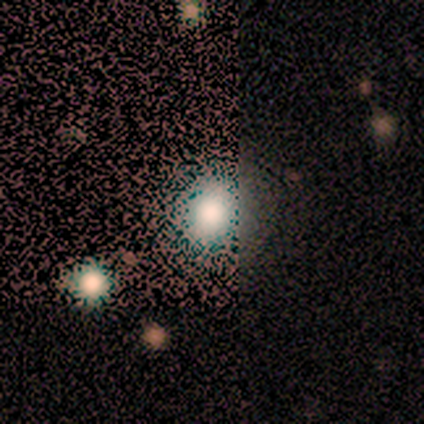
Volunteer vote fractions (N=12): smooth_or_featured: smooth (p=0.50) [tied with: star or artifact p=0.50]
how_rounded: round (p=0.67) [alt: in between p=0.33]
merging: none (p=0.83) [alt: minor disturbance p=0.17]